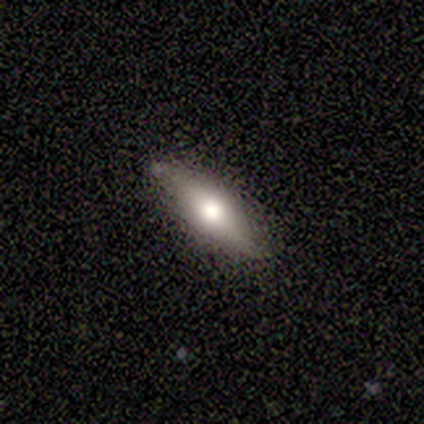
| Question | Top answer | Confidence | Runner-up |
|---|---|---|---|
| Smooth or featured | smooth | 60% | featured or disk (20%) |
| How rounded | in between | 67% | cigar-shaped (33%) |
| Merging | none | 50% | tied: minor disturbance (50%) |